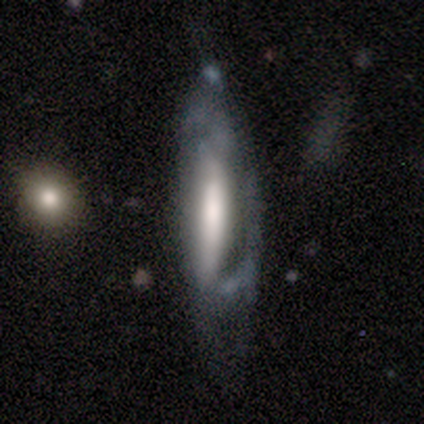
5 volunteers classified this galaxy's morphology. featured or disk 60%, smooth 40%, star or artifact 0%. Down the decision tree: edge-on disk — no (67%); bar — strong (100%); spiral arms — yes (50%, tied with no); spiral arm count — can't tell (100%); spiral winding — medium (100%); bulge size — moderate (100%); merging — major disturbance (60%).